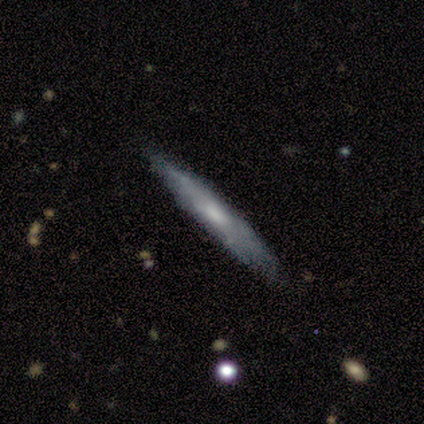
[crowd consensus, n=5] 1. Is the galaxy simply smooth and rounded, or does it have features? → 60% featured or disk, 20% smooth, 20% star or artifact.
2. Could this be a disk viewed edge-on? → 67% yes, 33% no.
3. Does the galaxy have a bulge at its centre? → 100% none, 0% boxy, 0% rounded.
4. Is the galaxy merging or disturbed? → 100% none, 0% minor disturbance, 0% major disturbance, 0% merger.